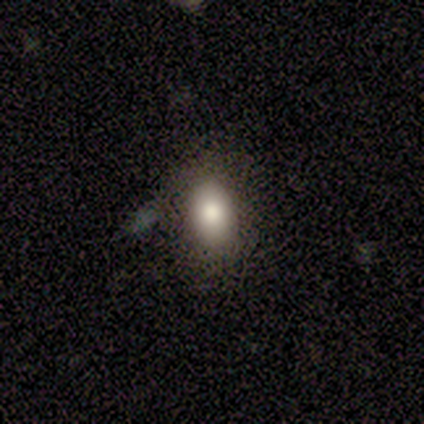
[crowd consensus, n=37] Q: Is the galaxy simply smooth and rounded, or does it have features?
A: smooth — 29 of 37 (78%).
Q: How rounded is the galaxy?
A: in between — 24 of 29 (83%).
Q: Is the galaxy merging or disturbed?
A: none — 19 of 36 (53%).